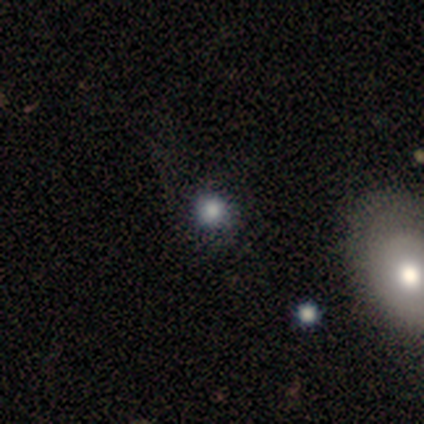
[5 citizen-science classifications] smooth-or-featured: smooth: 60% | star or artifact: 40% | featured or disk: 0%
  how-rounded: round: 100% | in between: 0% | cigar-shaped: 0%
  merging: none: 100% | minor disturbance: 0% | major disturbance: 0% | merger: 0%